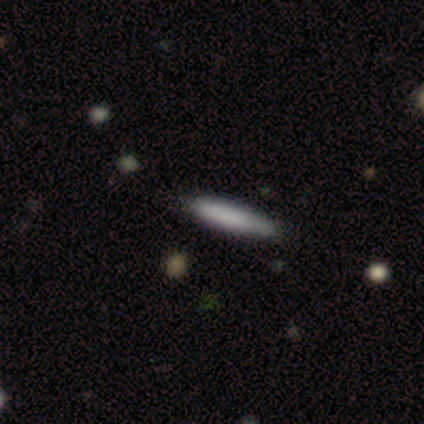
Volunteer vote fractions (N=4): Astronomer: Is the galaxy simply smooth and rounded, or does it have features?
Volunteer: smooth — 50%, tied with star or artifact at 50%.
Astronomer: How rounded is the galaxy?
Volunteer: cigar-shaped — 100%.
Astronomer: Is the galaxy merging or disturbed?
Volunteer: none — 100%.